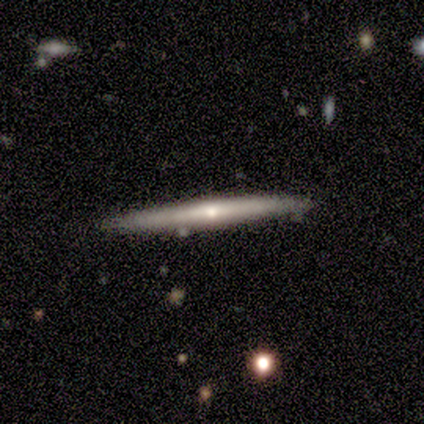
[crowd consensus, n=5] Overall: featured or disk (100%). Edge-on disk: yes (80%). Edge-on bulge: rounded (75%). Merging: none (80%).